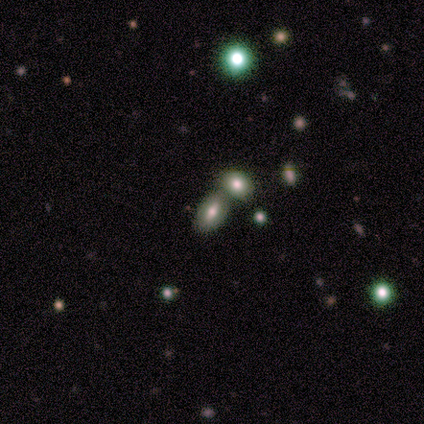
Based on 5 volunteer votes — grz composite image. It shows a smooth galaxy with no disk features (80%) that is in between round and cigar-shaped (75%). Merging: minor disturbance (50%, tied with merger).